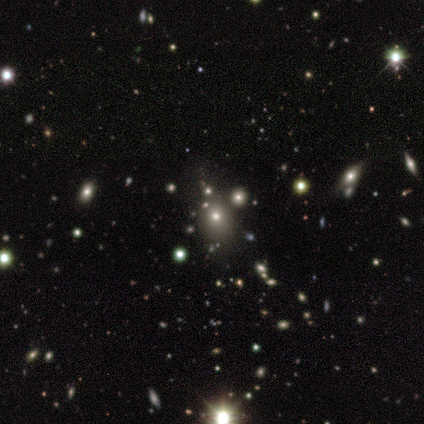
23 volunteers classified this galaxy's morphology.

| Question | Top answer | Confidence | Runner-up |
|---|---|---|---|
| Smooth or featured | smooth | 52% | star or artifact (30%) |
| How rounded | round | 75% | in between (25%) |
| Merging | none | 75% | minor disturbance (19%) |